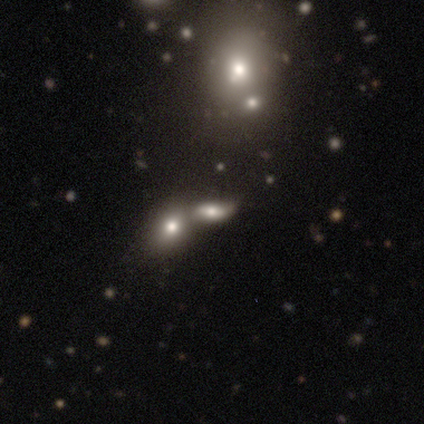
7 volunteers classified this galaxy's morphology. smooth_or_featured: smooth (p=0.57) [alt: featured or disk p=0.29]
how_rounded: round (p=0.50) [tied with: in between p=0.50]
merging: none (p=0.67) [alt: minor disturbance p=0.17]